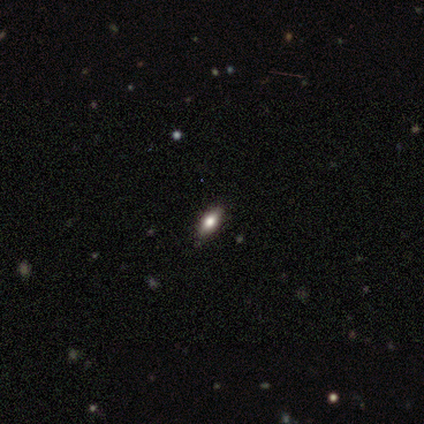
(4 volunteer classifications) This is likely a smooth galaxy (75%). How rounded: clearly in between (100%). Merging: clearly none (100%).